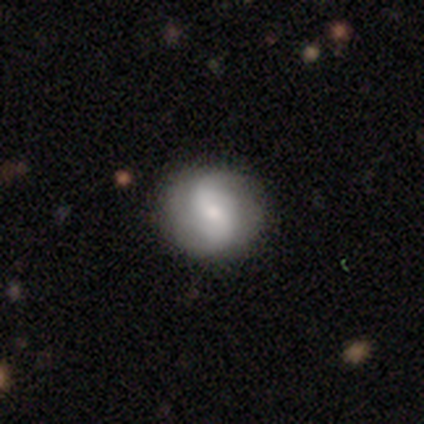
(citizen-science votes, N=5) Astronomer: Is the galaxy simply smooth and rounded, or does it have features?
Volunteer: featured or disk — 60% (runner-up: smooth, 40%).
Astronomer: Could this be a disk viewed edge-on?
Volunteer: no — 100%.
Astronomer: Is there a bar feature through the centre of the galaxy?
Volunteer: no — 67%.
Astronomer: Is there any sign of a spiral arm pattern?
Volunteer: yes — 100%.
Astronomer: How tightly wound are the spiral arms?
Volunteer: loose — 67%.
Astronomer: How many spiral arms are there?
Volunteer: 2 — 67%.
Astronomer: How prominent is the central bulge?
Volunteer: small — 67%.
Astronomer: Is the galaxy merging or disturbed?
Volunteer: none — 60%.